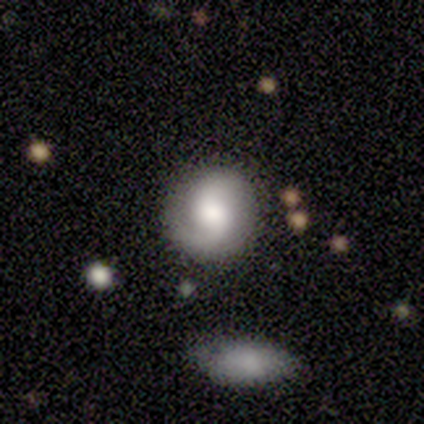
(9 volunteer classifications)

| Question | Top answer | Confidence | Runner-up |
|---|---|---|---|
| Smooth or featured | smooth | 56% | featured or disk (44%) |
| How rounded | round | 100% | — |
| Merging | none | 78% | minor disturbance (11%) |